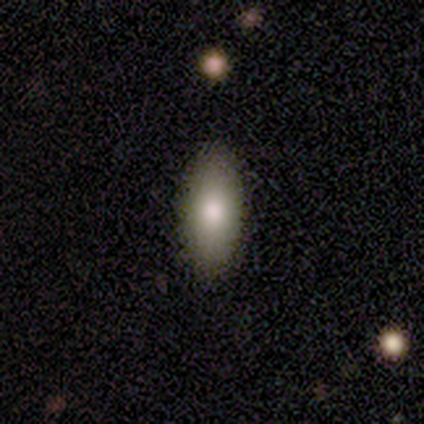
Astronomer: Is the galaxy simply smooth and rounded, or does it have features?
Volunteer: smooth — 82%.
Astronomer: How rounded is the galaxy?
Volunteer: in between — 77%.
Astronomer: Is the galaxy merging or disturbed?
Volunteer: none — 97%.